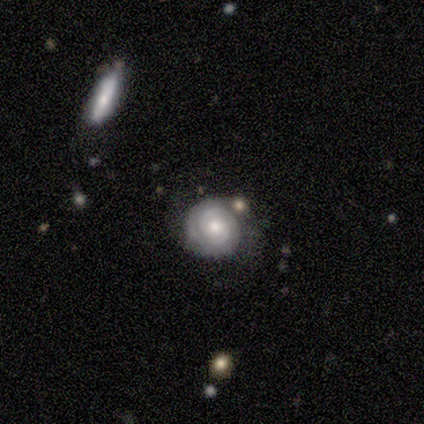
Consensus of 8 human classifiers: Smooth or featured?
  - featured or disk: 88% *
  - smooth: 12%
  - star or artifact: 0%
Edge-on disk?
  - no: 86% *
  - yes: 14%
Bar?
  - no: 67% *
  - weak: 33%
  - strong: 0%
Spiral arms?
  - yes: 83% *
  - no: 17%
Spiral winding?
  - tight: 100% *
  - medium: 0%
  - loose: 0%
Spiral arm count?
  - 2: 40% * (tied)
  - can't tell: 40% * (tied)
  - 3: 20%
  - 1: 0%
  - 4: 0%
  - more than 4: 0%
Bulge size?
  - moderate: 83% *
  - small: 17%
  - dominant: 0%
  - large: 0%
  - none: 0%
Merging?
  - none: 50% *
  - minor disturbance: 25%
  - major disturbance: 12%
  - merger: 12%